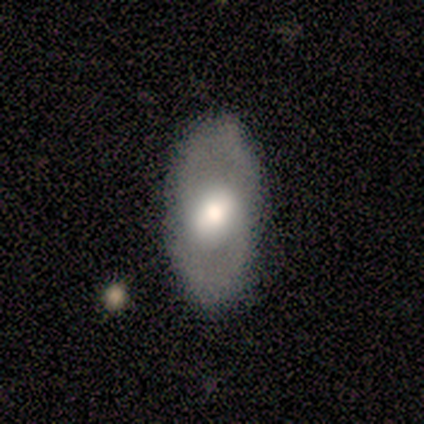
A smooth galaxy with no disk features (83%) that is in between round and cigar-shaped (80%).

Vote fractions:
- Smooth or featured? smooth: 83% / featured or disk: 17% / star or artifact: 0%
- How rounded? in between: 80% / round: 20% / cigar-shaped: 0%
- Merging? none: 100% / minor disturbance: 0% / major disturbance: 0% / merger: 0%